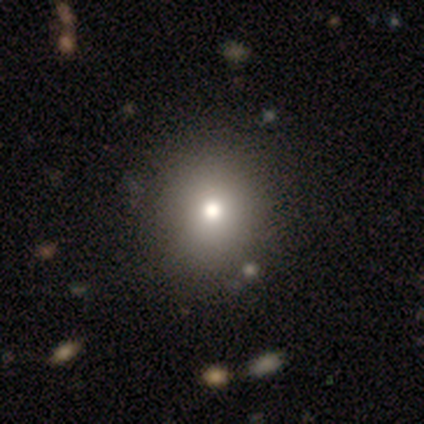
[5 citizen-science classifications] Overall: smooth (80%). How rounded: round (75%). Merging: none (80%).